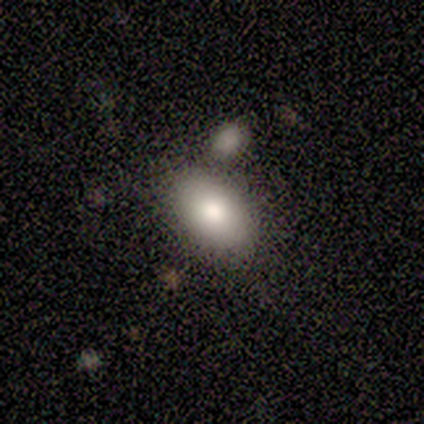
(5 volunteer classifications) A smooth galaxy with no disk features (80%) that is in between round and cigar-shaped (100%).

Vote fractions:
- Smooth or featured? smooth: 80% / star or artifact: 20% / featured or disk: 0%
- How rounded? in between: 100% / round: 0% / cigar-shaped: 0%
- Merging? none: 75% / merger: 25% / minor disturbance: 0% / major disturbance: 0%